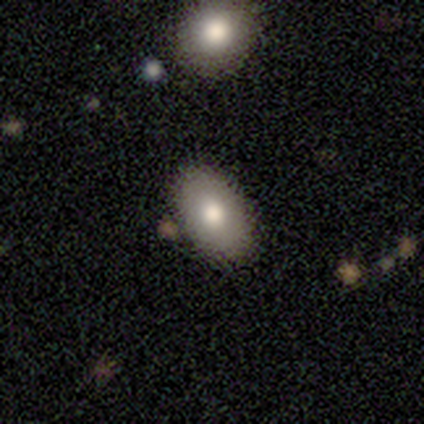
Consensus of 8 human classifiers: Smooth or featured? featured or disk (62%)
Edge-on disk? no (80%)
Bar? no (75%)
Spiral arms? no (100%)
Bulge size? moderate (100%)
Merging? none (100%)